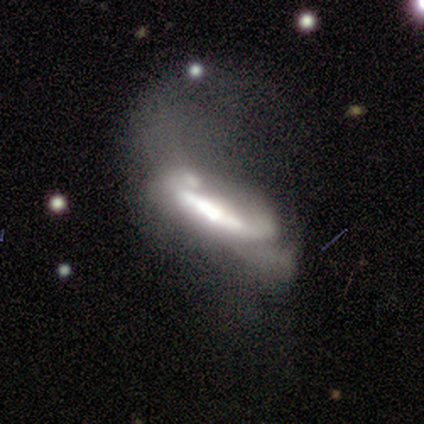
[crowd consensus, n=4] smooth_or_featured: featured or disk (p=0.75) [alt: star or artifact p=0.25]
disk_edge_on: no (p=0.67) [alt: yes p=0.33]
bar: strong (p=1.00)
has_spiral_arms: no (p=1.00)
bulge_size: large (p=1.00)
merging: major disturbance (p=1.00)